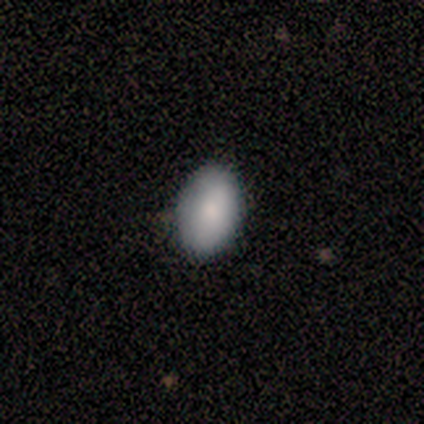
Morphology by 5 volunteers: Volunteers were most divided on "merging": none: 75%, major disturbance: 25%, minor disturbance: 0%, merger: 0%. More confident: how rounded — in between (100%); smooth or featured — smooth (80%).